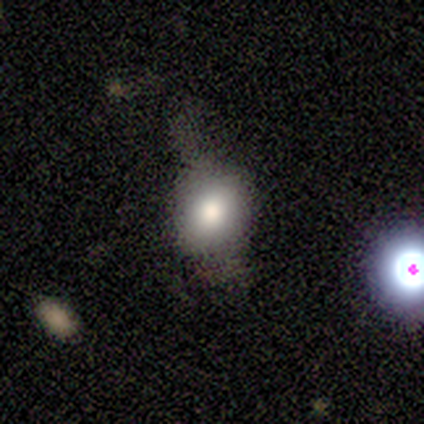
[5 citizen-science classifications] Volunteers were most divided on "merging" (2-way tie): none: 40%, minor disturbance: 40%, merger: 20%, major disturbance: 0%. More confident: how rounded — round (100%); smooth or featured — smooth (60%).